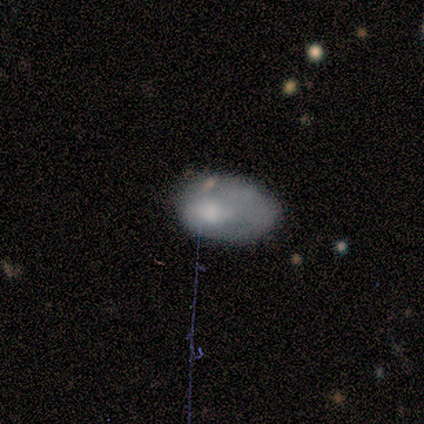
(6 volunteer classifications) Overall: smooth (100%). How rounded: in between (100%). Merging: none (50%; minor disturbance 33%).